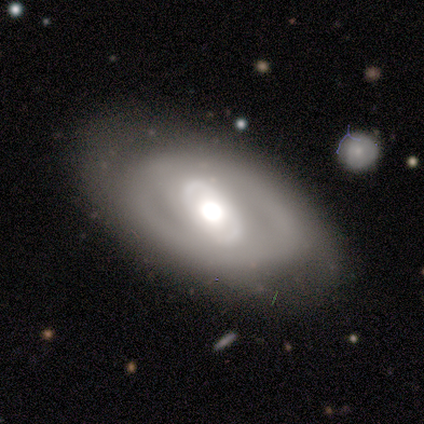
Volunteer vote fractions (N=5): This is marginally a smooth galaxy (40%, tied with featured or disk). How rounded: clearly in between (100%). Merging: likely none (75%).